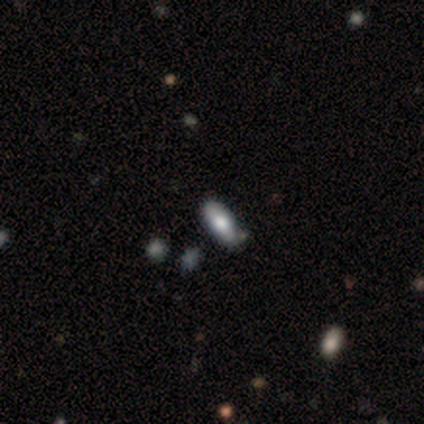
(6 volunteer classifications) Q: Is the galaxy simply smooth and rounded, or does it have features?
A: smooth — 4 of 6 (67%).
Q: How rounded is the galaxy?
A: in between — 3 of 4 (75%).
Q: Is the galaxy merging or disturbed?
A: none — 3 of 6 (50%).